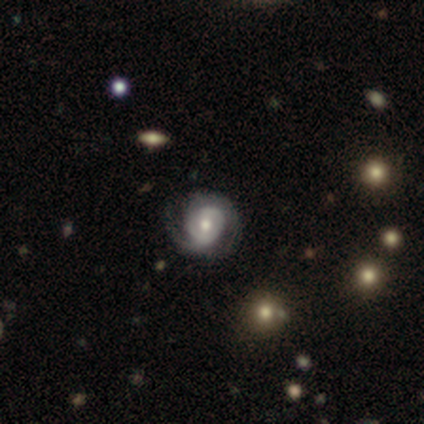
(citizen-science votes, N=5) Q: Smooth or featured?
A: featured or disk (80%); runner-up: star or artifact (20%)
Q: Edge-on disk?
A: no (100%)
Q: Bar?
A: no (75%); runner-up: weak (25%)
Q: Spiral arms?
A: yes (100%)
Q: Spiral winding?
A: medium (100%)
Q: Spiral arm count?
A: 2 (75%); runner-up: 1 (25%)
Q: Bulge size?
A: moderate (75%); runner-up: small (25%)
Q: Merging?
A: none (100%)